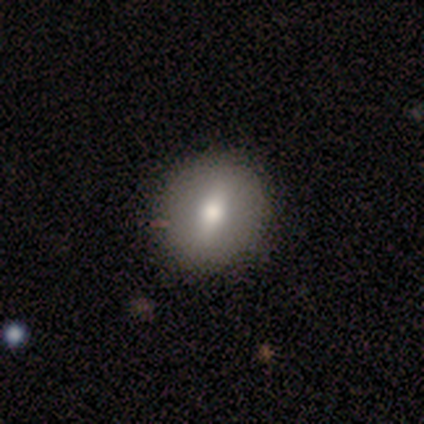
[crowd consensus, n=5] Morphology: type=featured or disk (60%); edge-on=no (100%); bar=weak (67%); spiral arms=no (100%); bulge=moderate (67%); merging=none (100%).